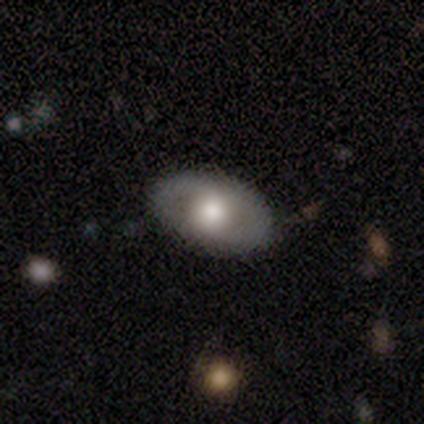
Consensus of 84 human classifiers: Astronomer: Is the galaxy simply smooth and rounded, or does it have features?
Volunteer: featured or disk — 49% (runner-up: smooth, 42%).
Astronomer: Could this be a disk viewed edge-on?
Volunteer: no — 83%.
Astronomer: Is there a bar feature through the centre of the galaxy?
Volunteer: no — 94%.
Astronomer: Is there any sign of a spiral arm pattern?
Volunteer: no — 82%.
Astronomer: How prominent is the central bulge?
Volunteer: moderate — 56% (runner-up: large, 41%).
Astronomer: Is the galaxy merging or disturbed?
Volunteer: none — 84%.